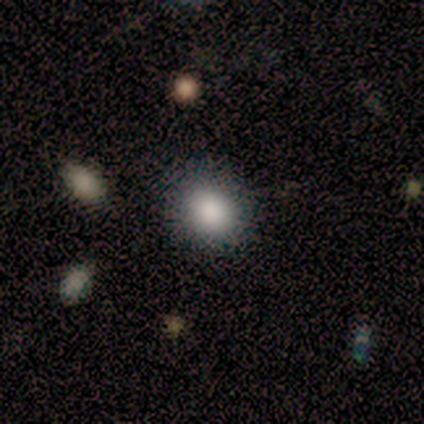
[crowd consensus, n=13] This appears to be a smooth galaxy with no disk features (85%) that is round (55%). Merging: none (91%).